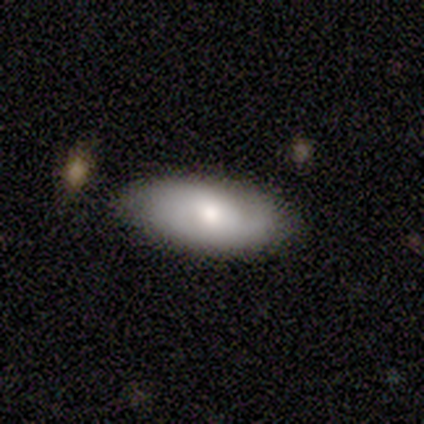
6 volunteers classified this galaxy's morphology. Q: Smooth or featured?
A: smooth (50%); runner-up: featured or disk (33%)
Q: How rounded?
A: in between (100%)
Q: Merging?
A: none (60%); runner-up: minor disturbance (40%)